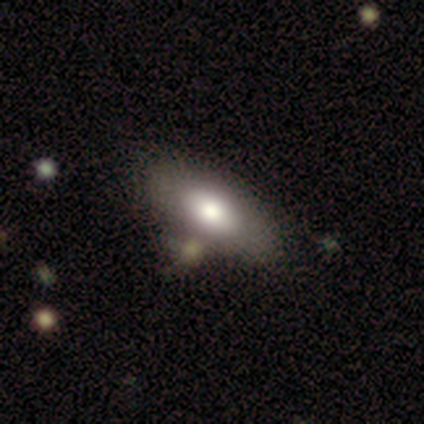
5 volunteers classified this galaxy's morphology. smooth 60%, featured or disk 40%, star or artifact 0%. Down the decision tree: how rounded — in between (100%); merging — minor disturbance (40%).